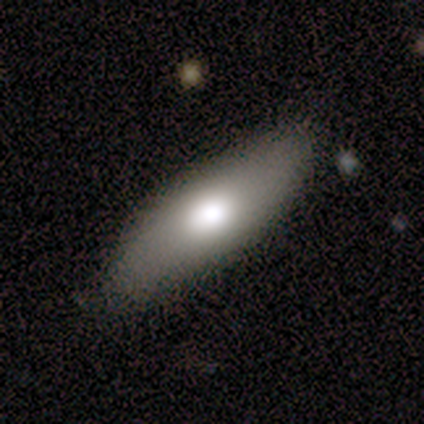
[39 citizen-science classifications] This appears to be a smooth galaxy with no disk features (51%) that is in between round and cigar-shaped (65%). Merging: none (73%).